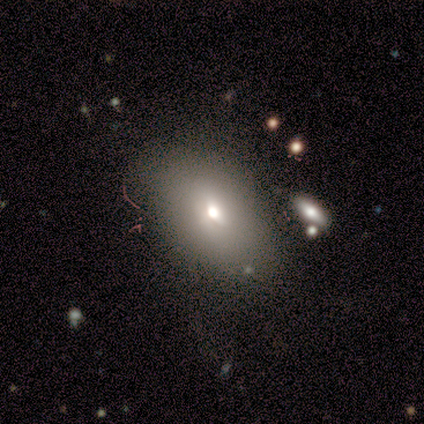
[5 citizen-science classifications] Q: Smooth or featured?
A: featured or disk (80%); runner-up: smooth (20%)
Q: Edge-on disk?
A: no (100%)
Q: Bar?
A: no (75%); runner-up: weak (25%)
Q: Spiral arms?
A: no (100%)
Q: Bulge size?
A: moderate (50%); runner-up: dominant (25%)
Q: Merging?
A: none (80%); runner-up: minor disturbance (20%)